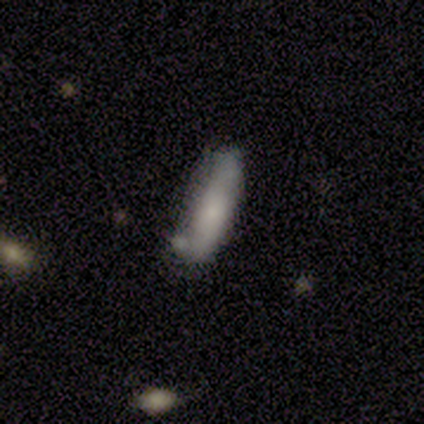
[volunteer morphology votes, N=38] Q: Smooth or featured?
A: smooth (58%); runner-up: featured or disk (34%)
Q: How rounded?
A: cigar-shaped (64%); runner-up: in between (36%)
Q: Merging?
A: none (60%); runner-up: minor disturbance (20%)